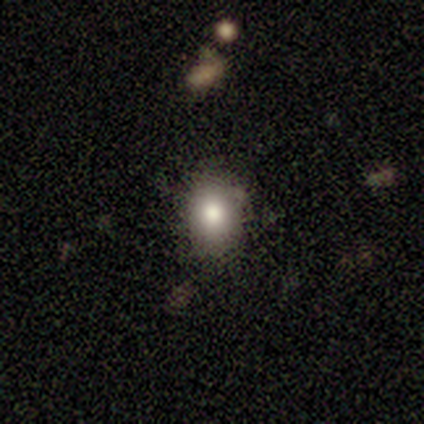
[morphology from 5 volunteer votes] A smooth galaxy with no disk features (80%) that is round (50%, tied with in between). Merging: none (60%).